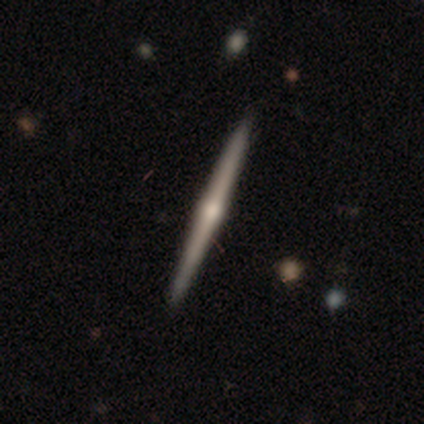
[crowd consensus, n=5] smooth-or-featured: featured or disk: 80% | smooth: 20% | star or artifact: 0%
  disk-edge-on: yes: 100% | no: 0%
    edge-on-bulge: rounded: 100% | boxy: 0% | none: 0%
  merging: none: 100% | minor disturbance: 0% | major disturbance: 0% | merger: 0%